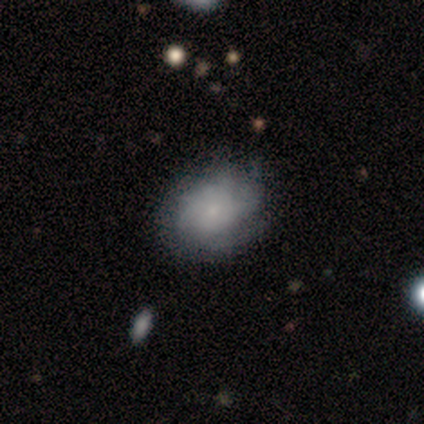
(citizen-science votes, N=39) Morphology: type=featured or disk (54%); edge-on=no (100%); bar=no (81%); spiral arms=yes (86%); winding=tight (67%); arm count=can't tell (61%); bulge=small (71%); merging=none (69%).